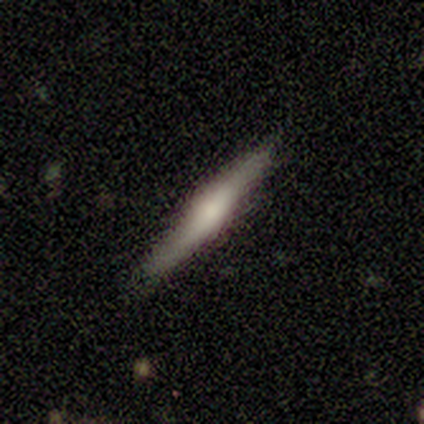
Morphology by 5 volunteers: featured or disk 60%, smooth 40%, star or artifact 0%. Down the decision tree: edge-on disk — yes (100%); edge-on bulge — rounded (67%); merging — none (80%).